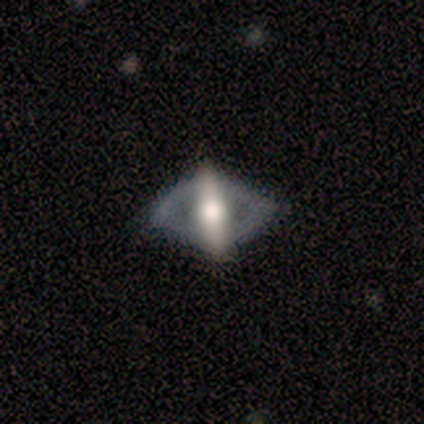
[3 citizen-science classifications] Morphology: type=featured or disk (100%); edge-on=no (100%); bar=no (67%); spiral arms=no (100%); bulge=large (67%); merging=none (67%).